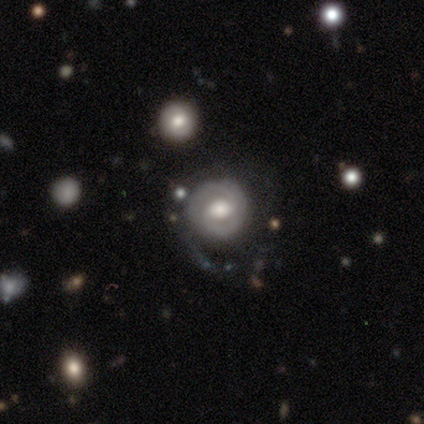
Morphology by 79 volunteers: Smooth or featured?
  - featured or disk: 68% *
  - smooth: 24%
  - star or artifact: 8%
Edge-on disk?
  - no: 94% *
  - yes: 6%
Bar?
  - no: 51% *
  - weak: 35%
  - strong: 14%
Spiral arms?
  - yes: 76% *
  - no: 24%
Spiral winding?
  - tight: 74% *
  - medium: 18%
  - loose: 8%
Spiral arm count?
  - 2: 56% *
  - 1: 28%
  - can't tell: 13%
  - 3: 3%
  - 4: 0%
  - more than 4: 0%
Bulge size?
  - moderate: 57% *
  - large: 37%
  - dominant: 4%
  - small: 2%
  - none: 0%
Merging?
  - none: 51% *
  - minor disturbance: 25%
  - major disturbance: 21%
  - merger: 4%